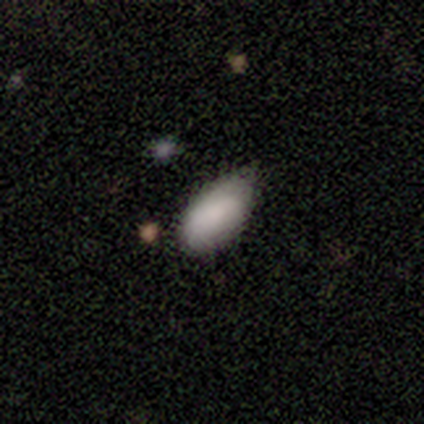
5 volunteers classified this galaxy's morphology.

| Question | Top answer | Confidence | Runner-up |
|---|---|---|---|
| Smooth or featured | smooth | 100% | — |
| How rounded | in between | 100% | — |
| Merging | none | 60% | minor disturbance (40%) |